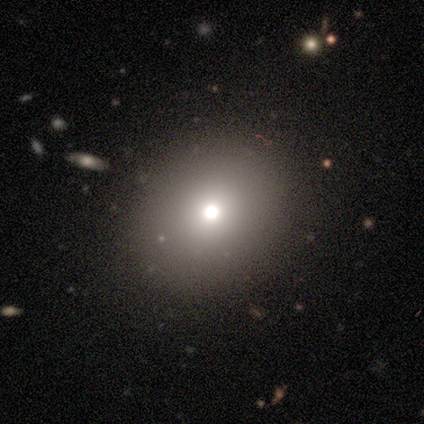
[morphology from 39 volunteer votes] This appears to be a smooth galaxy with no disk features (67%) that is round (77%). Merging: none (90%).